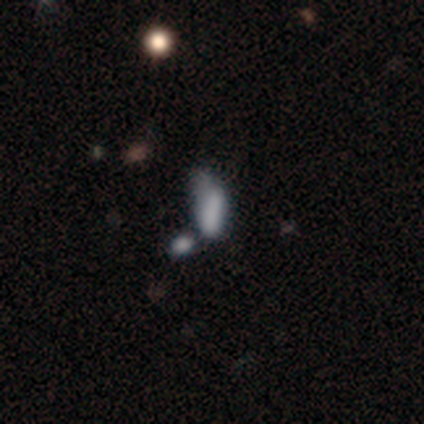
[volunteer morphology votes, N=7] This appears to be a smooth galaxy with no disk features (57%) that is in between round and cigar-shaped (75%). Merging: major disturbance (80%).